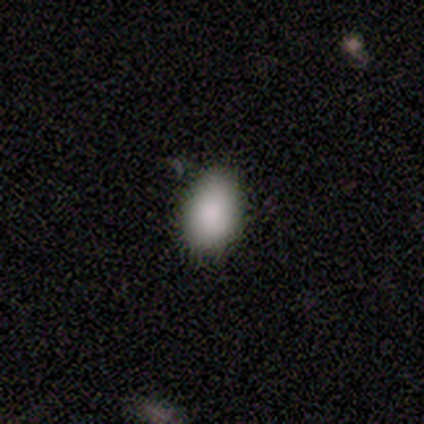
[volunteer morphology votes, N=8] This is clearly a smooth galaxy (100%). How rounded: likely in between (75%). Merging: possibly none (50%, tied with minor disturbance).